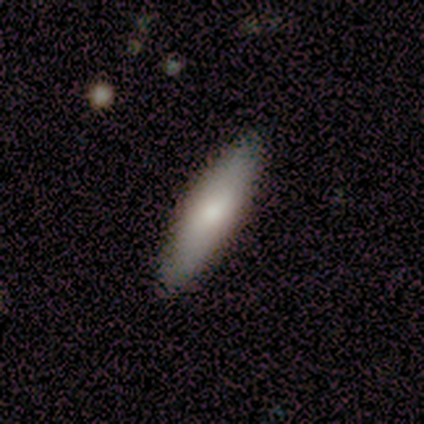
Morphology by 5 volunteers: smooth 100%, featured or disk 0%, star or artifact 0%. Down the decision tree: how rounded — cigar-shaped (60%); merging — none (100%).